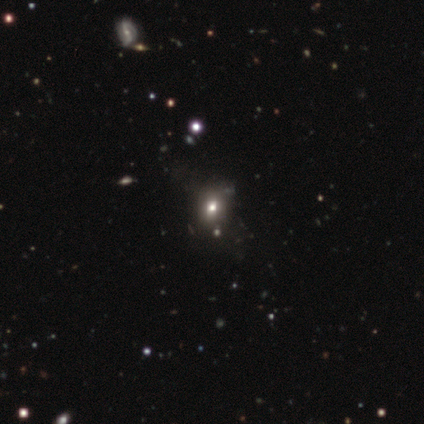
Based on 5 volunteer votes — Smooth or featured? 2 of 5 (40%, tied with star or artifact) said smooth. How rounded? 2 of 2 (100%) said round. Merging? 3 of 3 (100%) said none.